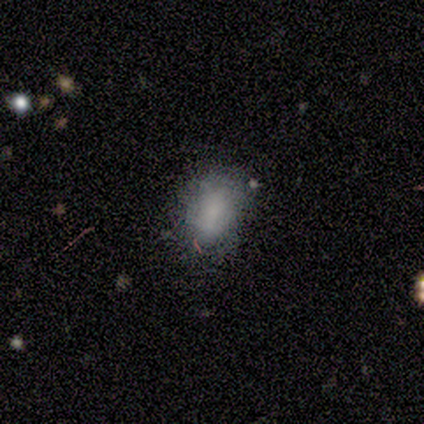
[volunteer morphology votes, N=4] smooth 50% (tied), star or artifact 50% (tied), featured or disk 0%. Down the decision tree: how rounded — in between (100%); merging — none (50%, tied with minor disturbance).